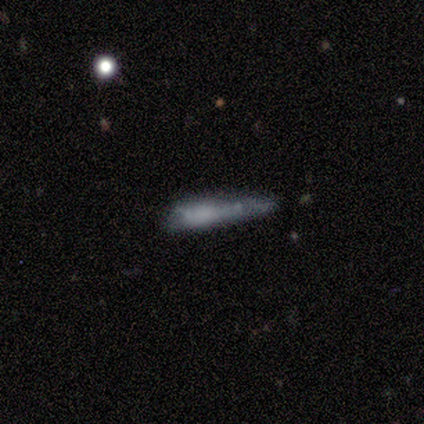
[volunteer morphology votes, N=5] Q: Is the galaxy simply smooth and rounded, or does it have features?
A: smooth — 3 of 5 (60%).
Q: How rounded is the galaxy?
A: cigar-shaped — 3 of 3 (100%).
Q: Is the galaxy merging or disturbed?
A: none — 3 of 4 (75%).